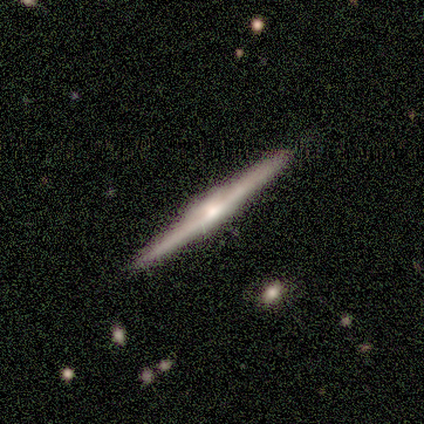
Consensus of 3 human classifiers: This appears to be a featured or disk galaxy (100%) viewed edge-on (100%) with a rounded central bulge (67%). Merging: none (67%).